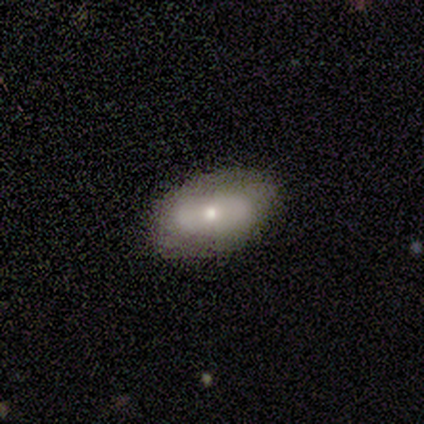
Q: Smooth or featured?
A: featured or disk (40%); tied with: star or artifact (40%)
Q: Edge-on disk?
A: no (100%)
Q: Bar?
A: weak (50%); tied with: no (50%)
Q: Spiral arms?
A: yes (50%); tied with: no (50%)
Q: Spiral winding?
A: loose (100%)
Q: Spiral arm count?
A: 2 (100%)
Q: Bulge size?
A: dominant (50%); tied with: small (50%)
Q: Merging?
A: none (100%)